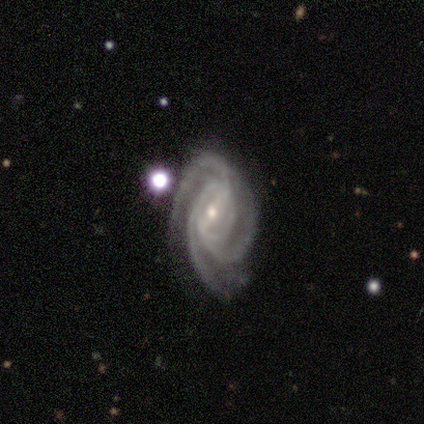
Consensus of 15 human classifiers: Morphology: type=featured or disk (93%); edge-on=no (100%); bar=weak (64%); spiral arms=yes (100%); winding=tight (50%); arm count=3 (79%); bulge=small (71%); merging=none (64%).